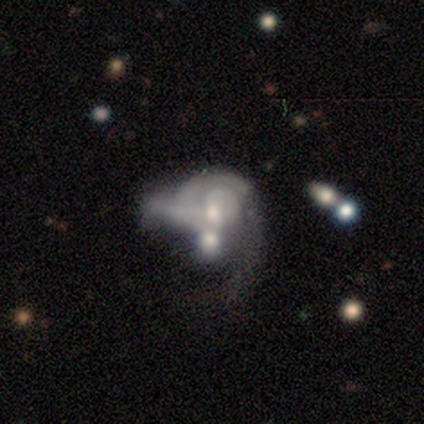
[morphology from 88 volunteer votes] featured or disk 74%, star or artifact 14%, smooth 12%. Down the decision tree: edge-on disk — no (94%); bar — no (77%); spiral arms — yes (64%); spiral arm count — can't tell (44%); spiral winding — tight (59%); bulge size — moderate (56%); merging — merger (59%).